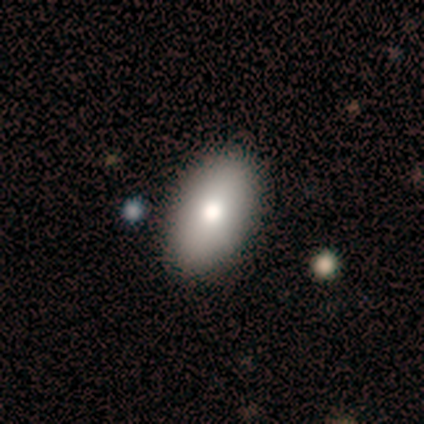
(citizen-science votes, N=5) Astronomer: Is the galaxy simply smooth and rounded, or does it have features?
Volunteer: smooth — 100%.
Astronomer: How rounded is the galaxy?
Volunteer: in between — 100%.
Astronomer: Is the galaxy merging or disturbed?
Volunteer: none — 100%.